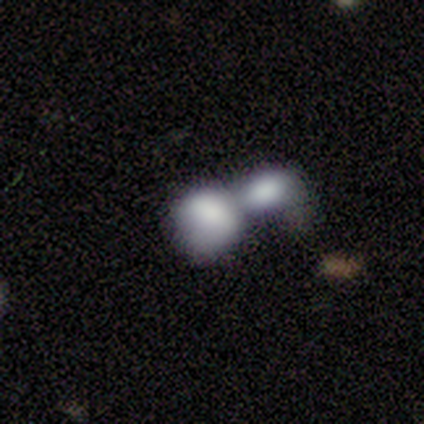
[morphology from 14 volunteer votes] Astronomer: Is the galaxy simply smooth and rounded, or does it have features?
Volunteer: smooth — 71%.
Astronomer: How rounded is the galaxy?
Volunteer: round — 50%, tied with in between at 50%.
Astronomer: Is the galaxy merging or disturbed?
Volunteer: merger — 67%.